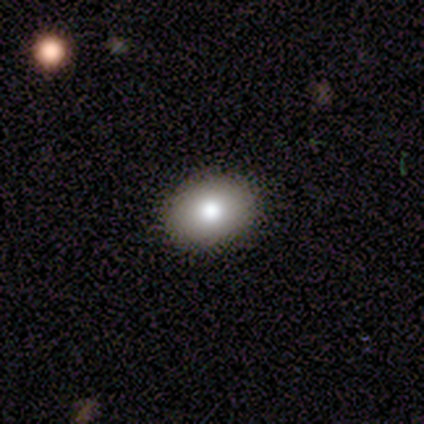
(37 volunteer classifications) This is likely a smooth galaxy (70%). How rounded: likely in between (69%). Merging: clearly none (87%).